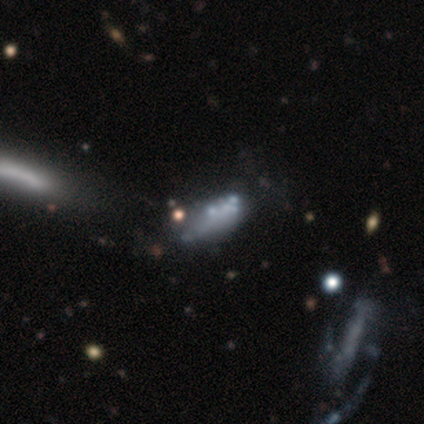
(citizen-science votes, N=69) Morphology: type=featured or disk (52%); edge-on=no (89%); bar=no (97%); spiral arms=no (100%); bulge=none (84%); merging=major disturbance (31%).